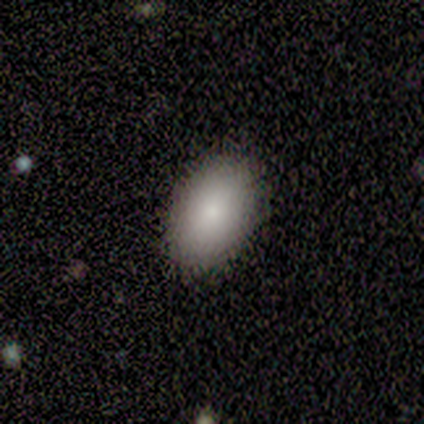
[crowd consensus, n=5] Smooth or featured: smooth — 100%
How rounded: in between — 100%
Merging: none — 100%